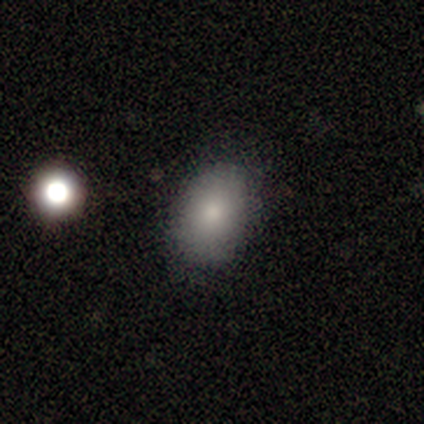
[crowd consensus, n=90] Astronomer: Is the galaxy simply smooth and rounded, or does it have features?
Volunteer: smooth — 78%.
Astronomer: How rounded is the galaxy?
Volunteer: in between — 83%.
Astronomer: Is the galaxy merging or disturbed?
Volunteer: none — 87%.